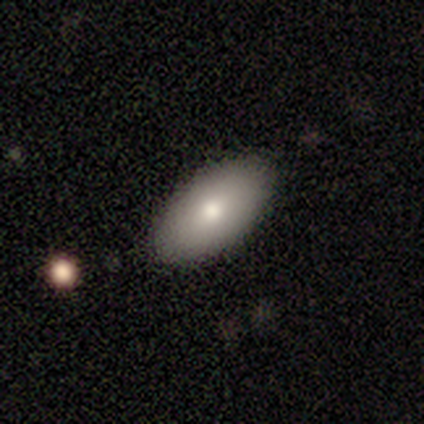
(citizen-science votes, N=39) Q: Smooth or featured?
A: smooth (77%); runner-up: featured or disk (21%)
Q: How rounded?
A: in between (97%); runner-up: round (3%)
Q: Merging?
A: none (95%); runner-up: minor disturbance (5%)